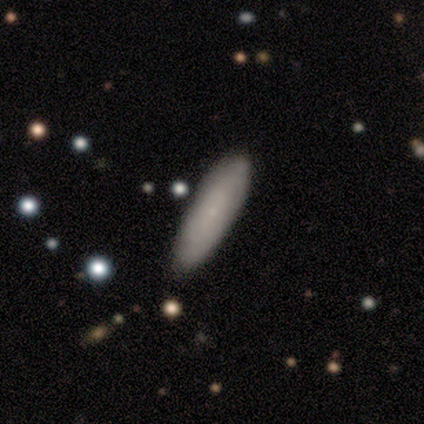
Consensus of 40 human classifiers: A smooth galaxy with no disk features (52%) that is cigar-shaped (67%).

Vote fractions:
- Smooth or featured? smooth: 52% / featured or disk: 32% / star or artifact: 15%
- How rounded? cigar-shaped: 67% / in between: 33% / round: 0%
- Merging? none: 44% / minor disturbance: 3% / major disturbance: 3% / merger: 0%